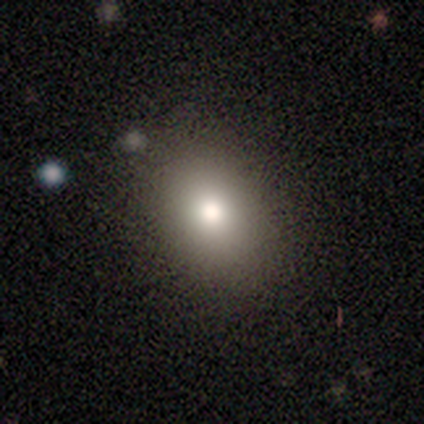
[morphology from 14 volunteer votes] smooth_or_featured: smooth (p=0.79) [alt: featured or disk p=0.14]
how_rounded: in between (p=0.91) [alt: round p=0.09]
merging: none (p=0.77) [alt: minor disturbance p=0.15]